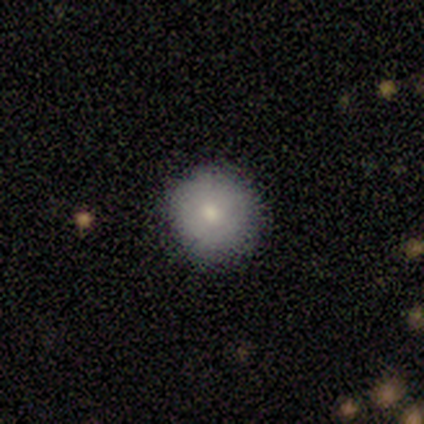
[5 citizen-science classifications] A smooth galaxy with no disk features (80%) that is round (100%).

Vote fractions:
- Smooth or featured? smooth: 80% / star or artifact: 20% / featured or disk: 0%
- How rounded? round: 100% / in between: 0% / cigar-shaped: 0%
- Merging? none: 100% / minor disturbance: 0% / major disturbance: 0% / merger: 0%